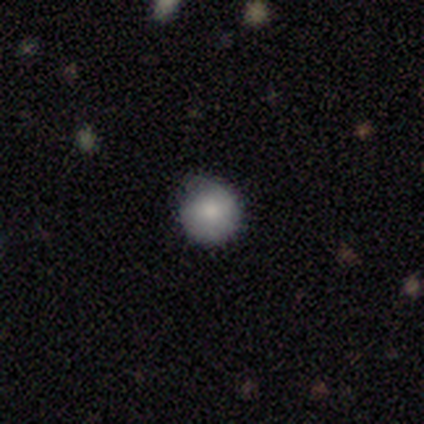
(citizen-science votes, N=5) A smooth galaxy with no disk features (80%) that is round (100%).

Vote fractions:
- Smooth or featured? smooth: 80% / featured or disk: 20% / star or artifact: 0%
- How rounded? round: 100% / in between: 0% / cigar-shaped: 0%
- Merging? minor disturbance: 60% / none: 40% / major disturbance: 0% / merger: 0%